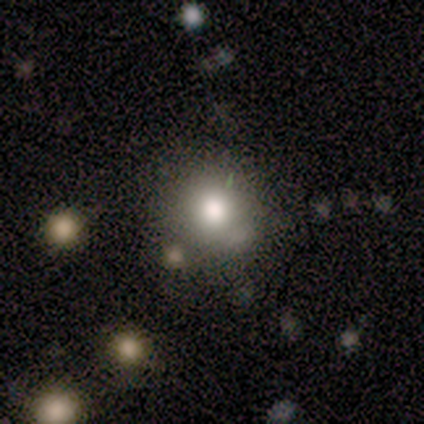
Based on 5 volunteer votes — smooth 80%, featured or disk 20%, star or artifact 0%. Down the decision tree: how rounded — round (100%); merging — none (60%).